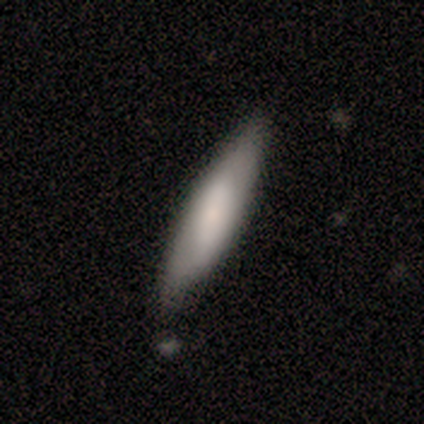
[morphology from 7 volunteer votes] smooth-or-featured: smooth: 71% | featured or disk: 29% | star or artifact: 0%
  how-rounded: cigar-shaped: 100% | round: 0% | in between: 0%
  merging: none: 57% | minor disturbance: 29% | merger: 14% | major disturbance: 0%